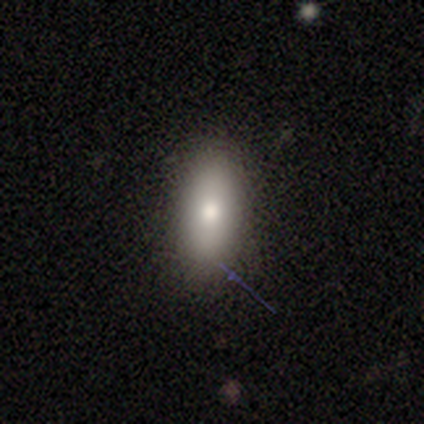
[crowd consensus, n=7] Smooth or featured? smooth (57%)
How rounded? in between (75%)
Merging? none (100%)